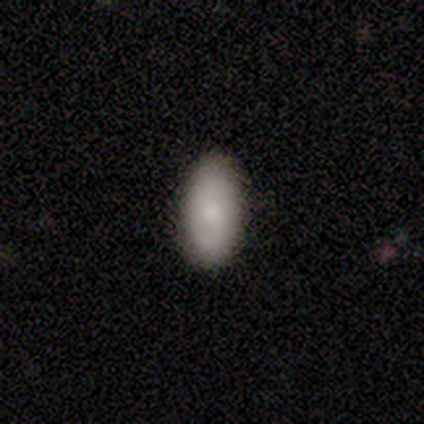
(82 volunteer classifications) Morphology: type=smooth (77%); roundness=in between (90%); merging=none (83%).